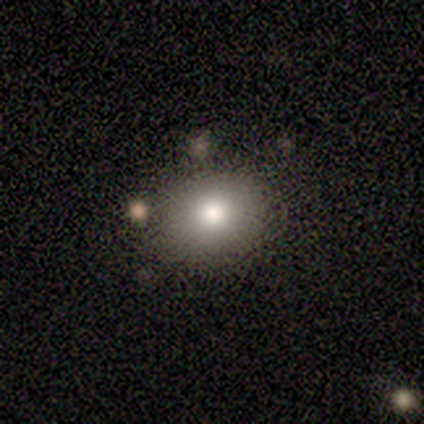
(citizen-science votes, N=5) Overall: smooth (80%). How rounded: round (50%, tied with in between). Merging: none (50%; minor disturbance 25%).